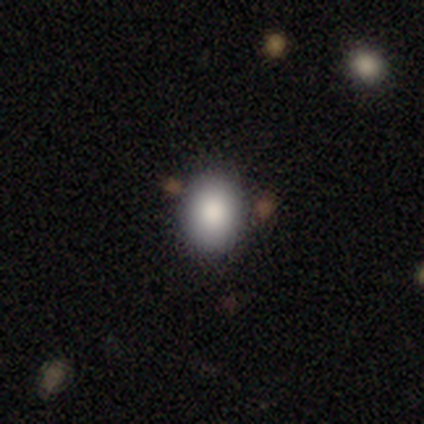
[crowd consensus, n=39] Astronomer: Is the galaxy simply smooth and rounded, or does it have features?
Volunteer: smooth — 87%.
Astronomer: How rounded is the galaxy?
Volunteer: in between — 53% (runner-up: round, 47%).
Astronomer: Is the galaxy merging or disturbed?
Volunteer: none — 87%.